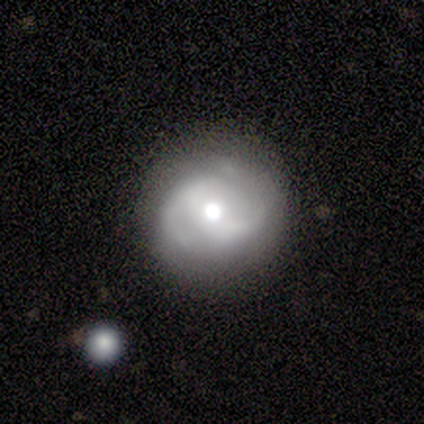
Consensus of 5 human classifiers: Smooth or featured? 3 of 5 (60%) said featured or disk. Edge-on disk? 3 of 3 (100%) said no. Bar? 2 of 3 (67%) said weak. Spiral arms? 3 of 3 (100%) said yes. Spiral winding? 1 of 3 (33%, tied with medium and loose) said tight. Spiral arm count? 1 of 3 (33%, tied with 3 and can't tell) said 2. Bulge size? 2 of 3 (67%) said moderate. Merging? 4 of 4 (100%) said none.